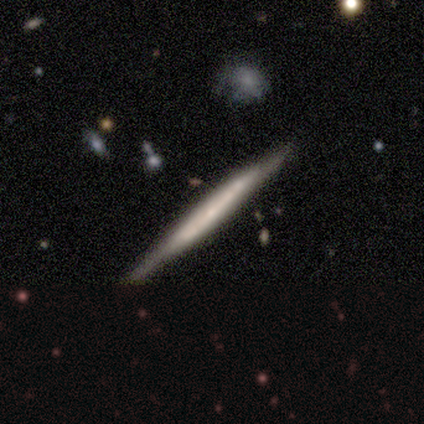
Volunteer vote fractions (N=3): Morphology: type=smooth (67%); roundness=cigar-shaped (100%); merging=none (67%).